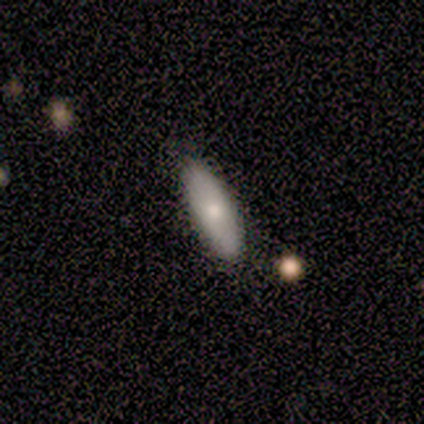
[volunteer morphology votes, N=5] A smooth galaxy with no disk features (60%) that is in between round and cigar-shaped (67%). Merging: none (75%).